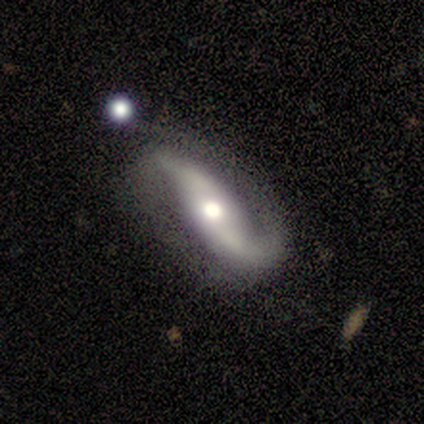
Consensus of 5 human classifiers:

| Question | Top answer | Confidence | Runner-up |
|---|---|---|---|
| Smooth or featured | featured or disk | 80% | smooth (20%) |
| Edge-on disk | no | 100% | — |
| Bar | no | 50% | strong (25%) |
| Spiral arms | yes | 75% | no (25%) |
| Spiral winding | loose | 67% | medium (33%) |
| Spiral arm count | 2 | 100% | — |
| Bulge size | moderate | 75% | small (25%) |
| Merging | none | 60% | minor disturbance (40%) |